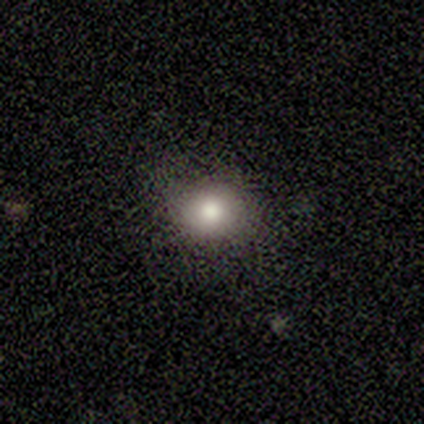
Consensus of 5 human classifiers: Smooth or featured? smooth (40%, tied with star or artifact)
How rounded? round (50%, tied with in between)
Merging? none (100%)